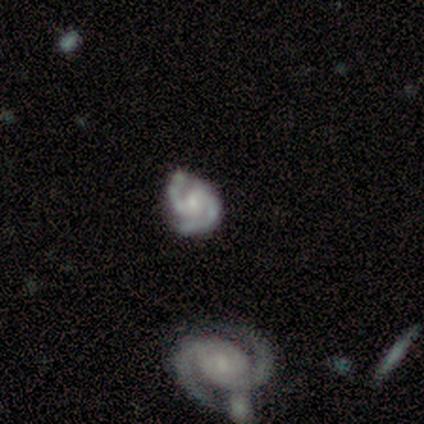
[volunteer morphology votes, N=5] This is clearly a featured or disk galaxy (100%). It is clearly not viewed edge-on (100%). Bar: clearly no (100%). Spiral arm pattern: clearly yes (100%). Spiral arm count: clearly 2 (80%). Spiral winding: likely tight (60%). Central bulge: likely small (60%). Merging: likely none (60%).